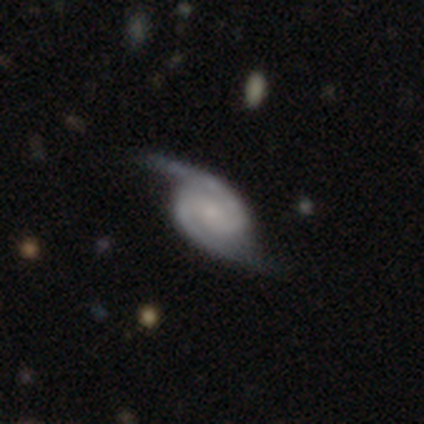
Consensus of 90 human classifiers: Smooth or featured: featured or disk — 93% (star or artifact — 4%)
Edge-on disk: no — 96% (yes — 4%)
Bar: no — 52% (weak — 38%)
Spiral arms: yes — 98% (no — 2%)
Spiral winding: medium — 44% (tight — 28%)
Spiral arm count: 2 — 95% (can't tell — 5%)
Bulge size: small — 59% (none — 21%)
Merging: none — 70% (minor disturbance — 21%)